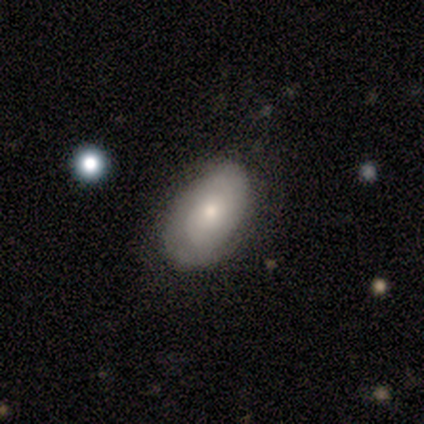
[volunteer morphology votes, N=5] Smooth or featured?
  - featured or disk: 80% *
  - smooth: 20%
  - star or artifact: 0%
Edge-on disk?
  - no: 75% *
  - yes: 25%
Bar?
  - no: 100% *
  - strong: 0%
  - weak: 0%
Spiral arms?
  - yes: 67% *
  - no: 33%
Spiral winding?
  - tight: 100% *
  - medium: 0%
  - loose: 0%
Spiral arm count?
  - 2: 50% * (tied)
  - can't tell: 50% * (tied)
  - 1: 0%
  - 3: 0%
  - 4: 0%
  - more than 4: 0%
Bulge size?
  - moderate: 67% *
  - small: 33%
  - dominant: 0%
  - large: 0%
  - none: 0%
Merging?
  - none: 60% *
  - minor disturbance: 40%
  - major disturbance: 0%
  - merger: 0%